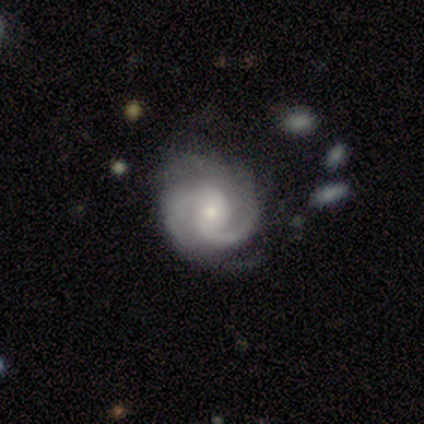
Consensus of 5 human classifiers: Smooth or featured: featured or disk — 100%
Edge-on disk: no — 100%
Bar: weak — 80% (no — 20%)
Spiral arms: yes — 100%
Spiral winding: tight — 60% (medium — 40%)
Spiral arm count: 2 — 100%
Bulge size: moderate — 60% (small — 40%)
Merging: none — 60% (minor disturbance — 40%)